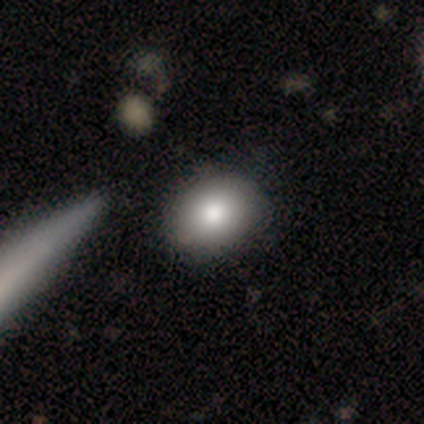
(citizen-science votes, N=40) A smooth galaxy with no disk features (80%) that is in between round and cigar-shaped (62%).

Vote fractions:
- Smooth or featured? smooth: 80% / featured or disk: 18% / star or artifact: 2%
- How rounded? in between: 62% / round: 38% / cigar-shaped: 0%
- Merging? none: 62% / merger: 10% / minor disturbance: 5% / major disturbance: 0%